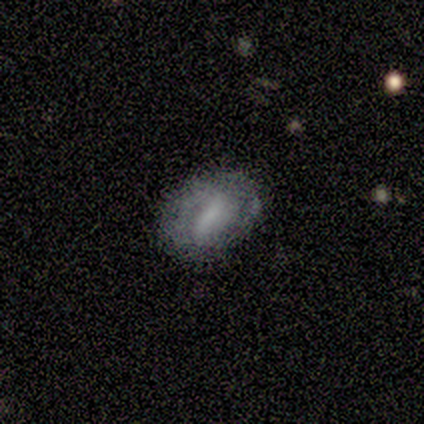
smooth-or-featured: featured or disk: 75% | star or artifact: 25% | smooth: 0%
  disk-edge-on: no: 100% | yes: 0%
    bar: strong: 67% | weak: 33% | no: 0%
    has-spiral-arms: no: 100% | yes: 0%
    bulge-size: large: 33% (tied) | moderate: 33% (tied) | none: 33% (tied) | dominant: 0% | small: 0%
  merging: none: 67% | minor disturbance: 33% | major disturbance: 0% | merger: 0%